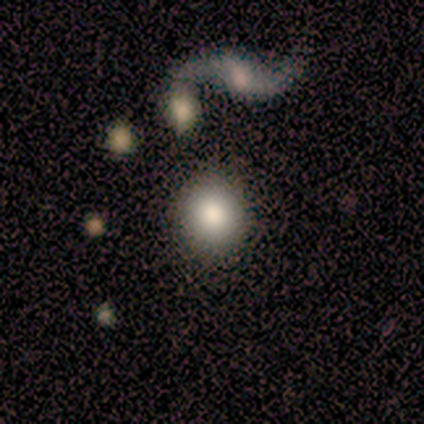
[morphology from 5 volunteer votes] Overall: smooth (80%). How rounded: round (75%). Merging: none (100%).